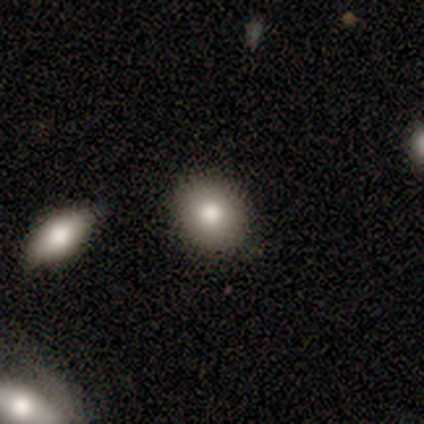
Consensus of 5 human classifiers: smooth-or-featured: smooth: 100% | featured or disk: 0% | star or artifact: 0%
  how-rounded: round: 80% | in between: 20% | cigar-shaped: 0%
  merging: none: 100% | minor disturbance: 0% | major disturbance: 0% | merger: 0%